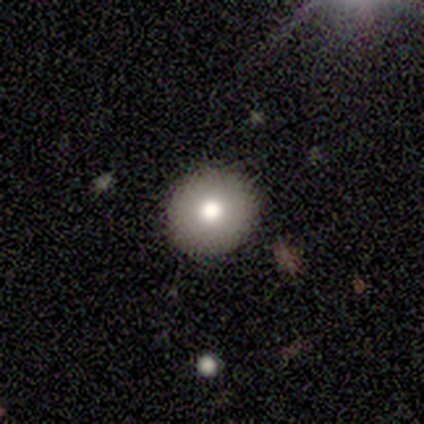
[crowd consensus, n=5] Morphology: type=smooth (80%); roundness=round (100%); merging=none (100%).